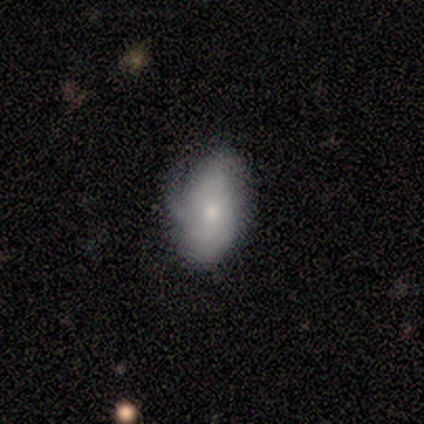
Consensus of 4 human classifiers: Smooth or featured?
  - featured or disk: 50% *
  - smooth: 25%
  - star or artifact: 25%
Edge-on disk?
  - no: 100% *
  - yes: 0%
Bar?
  - no: 100% *
  - strong: 0%
  - weak: 0%
Spiral arms?
  - yes: 100% *
  - no: 0%
Spiral winding?
  - medium: 100% *
  - tight: 0%
  - loose: 0%
Spiral arm count?
  - 3: 100% *
  - 1: 0%
  - 2: 0%
  - 4: 0%
  - more than 4: 0%
  - can't tell: 0%
Bulge size?
  - small: 100% *
  - dominant: 0%
  - large: 0%
  - moderate: 0%
  - none: 0%
Merging?
  - minor disturbance: 100% *
  - none: 0%
  - major disturbance: 0%
  - merger: 0%